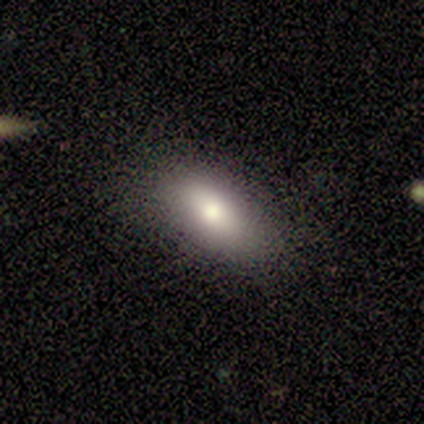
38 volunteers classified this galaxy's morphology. This appears to be a smooth galaxy with no disk features (71%) that is in between round and cigar-shaped (96%). Merging: none (68%).